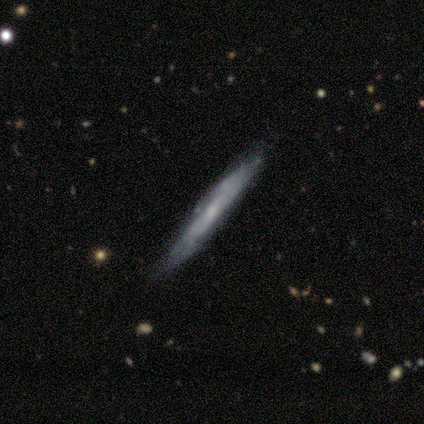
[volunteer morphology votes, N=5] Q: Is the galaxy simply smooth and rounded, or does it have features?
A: featured or disk — 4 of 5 (80%).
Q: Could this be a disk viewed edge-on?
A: yes — 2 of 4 (50%, tied with no).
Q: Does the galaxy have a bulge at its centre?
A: none — 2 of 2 (100%).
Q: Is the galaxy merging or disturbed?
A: none — 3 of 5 (60%).